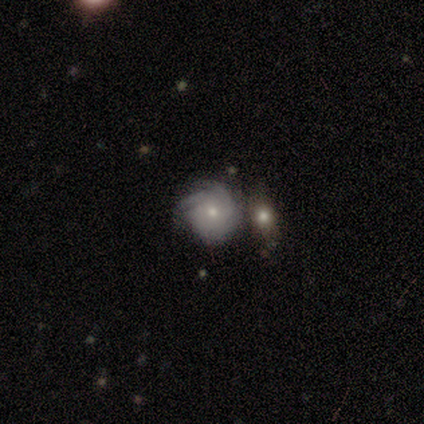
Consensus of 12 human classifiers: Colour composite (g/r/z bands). It shows a featured or disk galaxy (58%) with no bar (100%), tight (50%) spiral arms (86%) and a small central bulge (71%). Merging: merger (45%).